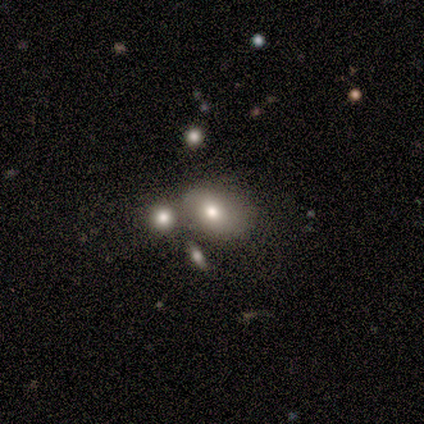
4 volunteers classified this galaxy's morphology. Smooth or featured? smooth (50%)
How rounded? in between (100%)
Merging? none (33%, tied with minor disturbance and merger)